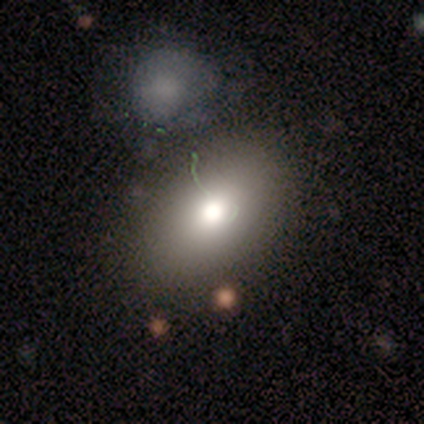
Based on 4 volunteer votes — Smooth or featured? 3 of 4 (75%) said smooth. How rounded? 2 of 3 (67%) said in between. Merging? 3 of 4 (75%) said none.